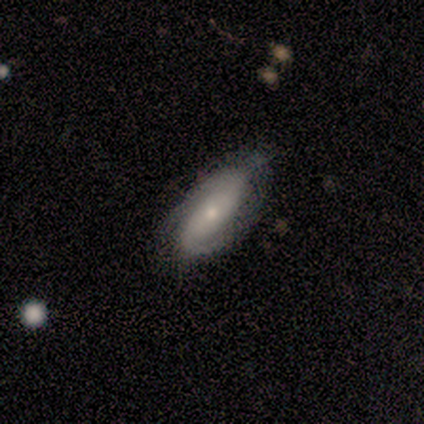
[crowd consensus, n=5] smooth-or-featured: featured or disk: 100% | smooth: 0% | star or artifact: 0%
  disk-edge-on: no: 100% | yes: 0%
    bar: no: 60% | weak: 40% | strong: 0%
    has-spiral-arms: yes: 100% | no: 0%
      spiral-winding: medium: 40% (tied) | loose: 40% (tied) | tight: 20%
      spiral-arm-count: 2: 80% | 1: 20% | 3: 0% | 4: 0% | more than 4: 0% | can't tell: 0%
    bulge-size: small: 60% | large: 20% | moderate: 20% | dominant: 0% | none: 0%
  merging: none: 60% | minor disturbance: 40% | major disturbance: 0% | merger: 0%